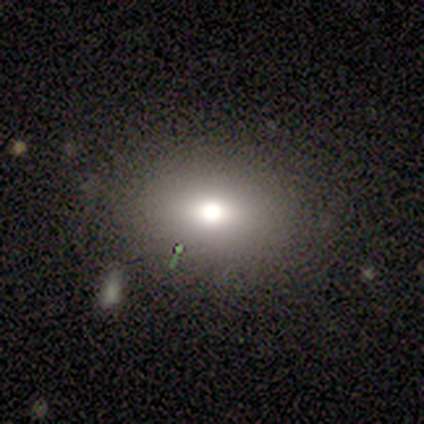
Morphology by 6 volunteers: Smooth or featured? 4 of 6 (67%) said smooth. How rounded? 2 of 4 (50%, tied with in between) said round. Merging? 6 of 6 (100%) said none.